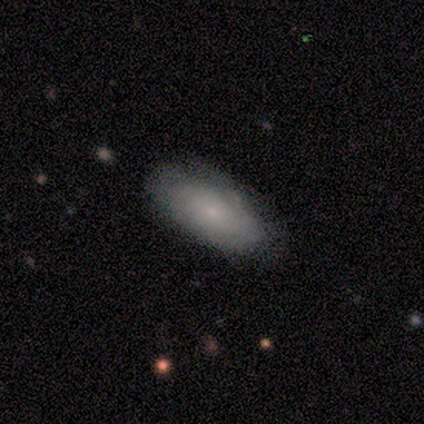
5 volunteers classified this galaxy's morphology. Smooth or featured? smooth (60%)
How rounded? in between (100%)
Merging? none (80%)